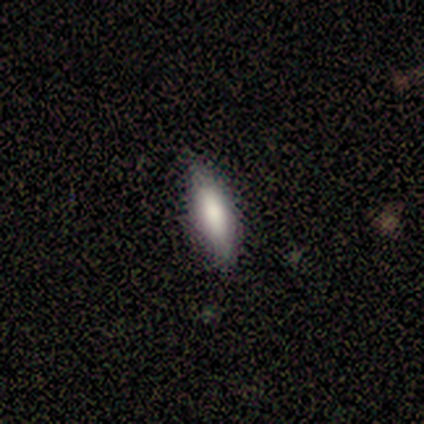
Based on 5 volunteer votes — Q: Smooth or featured?
A: smooth (60%); runner-up: featured or disk (40%)
Q: How rounded?
A: in between (100%)
Q: Merging?
A: none (100%)